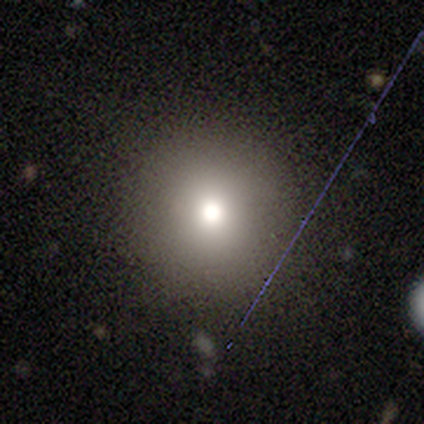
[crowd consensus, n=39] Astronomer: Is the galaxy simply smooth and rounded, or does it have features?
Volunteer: smooth — 67%.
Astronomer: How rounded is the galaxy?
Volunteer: round — 96%.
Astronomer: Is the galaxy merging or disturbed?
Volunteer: none — 97%.